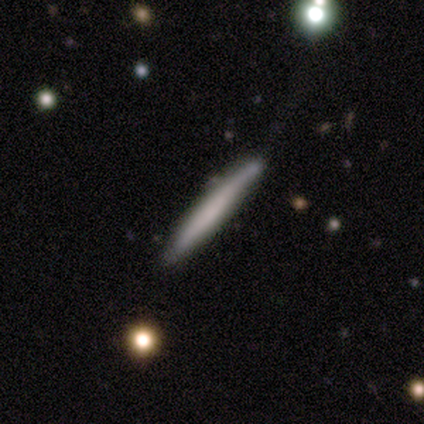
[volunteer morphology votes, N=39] A smooth galaxy with no disk features (56%) that is cigar-shaped (100%). Merging: none (35%).